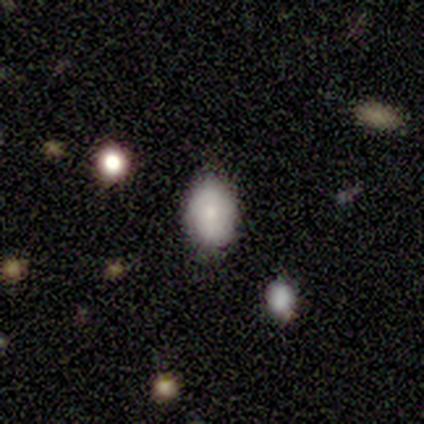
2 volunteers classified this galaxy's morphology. type=smooth (50%, tied with star or artifact); roundness=in between (100%); merging=none (100%).